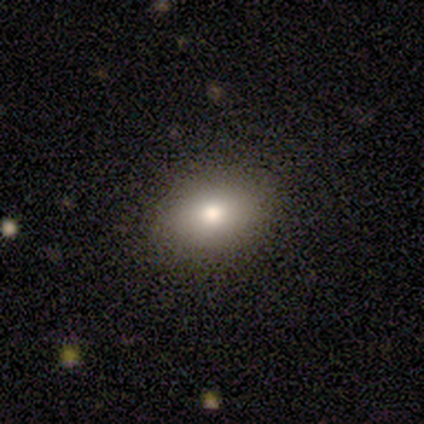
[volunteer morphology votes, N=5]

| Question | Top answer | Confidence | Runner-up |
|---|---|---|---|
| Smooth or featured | smooth | 80% | star or artifact (20%) |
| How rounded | in between | 100% | — |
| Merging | none | 100% | — |